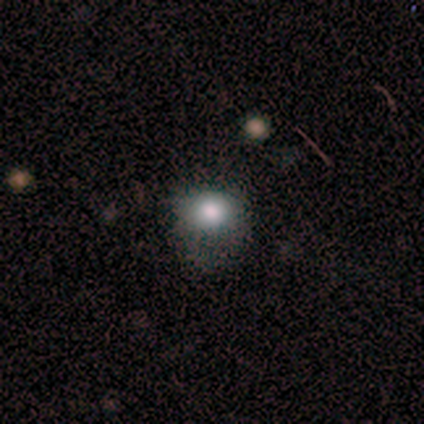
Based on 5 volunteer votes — Volunteers were most divided on "how rounded" (2-way tie): round: 50%, in between: 50%, cigar-shaped: 0%; "merging" (2-way tie): none: 40%, major disturbance: 40%, minor disturbance: 20%, merger: 0%. More confident: smooth or featured — smooth (80%).